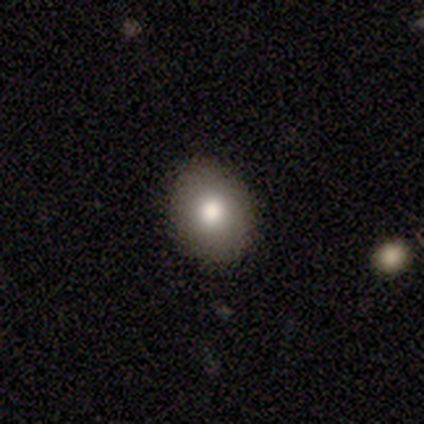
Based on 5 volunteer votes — Morphology: type=smooth (80%); roundness=round (50%, tied with in between); merging=none (100%).